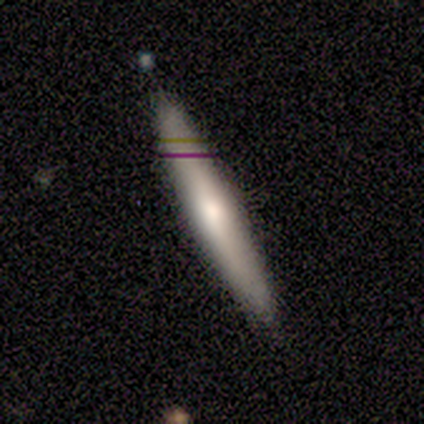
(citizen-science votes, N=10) Smooth or featured: smooth — 60% (featured or disk — 40%)
How rounded: cigar-shaped — 100%
Merging: none — 80% (minor disturbance — 20%)